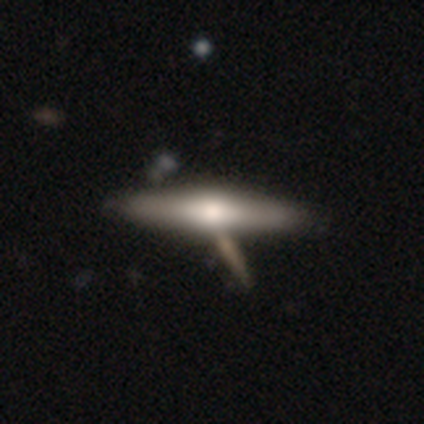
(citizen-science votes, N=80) This appears to be a smooth galaxy with no disk features (49%) that is cigar-shaped (79%). Merging: none (41%).